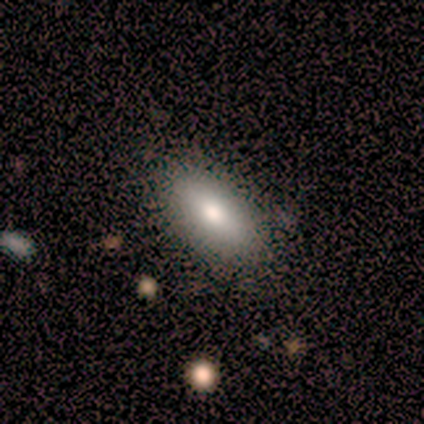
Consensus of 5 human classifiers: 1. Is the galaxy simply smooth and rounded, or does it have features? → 100% smooth, 0% featured or disk, 0% star or artifact.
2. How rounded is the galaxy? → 100% in between, 0% round, 0% cigar-shaped.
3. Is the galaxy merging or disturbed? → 100% none, 0% minor disturbance, 0% major disturbance, 0% merger.